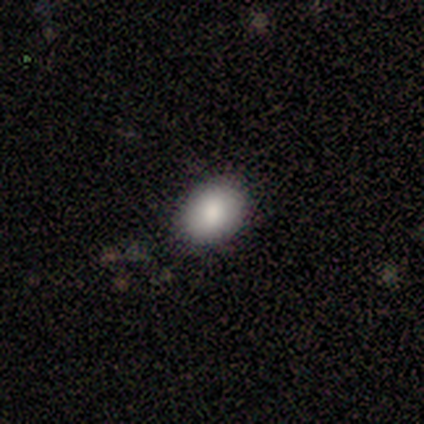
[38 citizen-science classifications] Smooth or featured: smooth — 92% (star or artifact — 5%)
How rounded: in between — 71% (round — 26%)
Merging: none — 83% (minor disturbance — 17%)